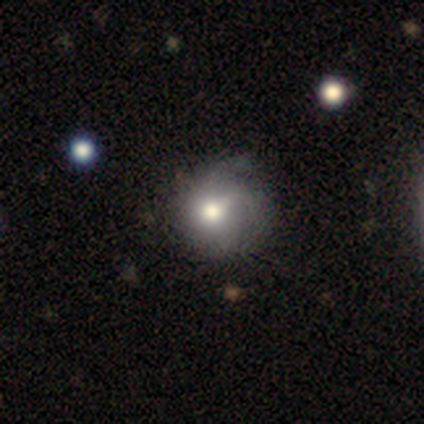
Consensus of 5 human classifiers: A featured or disk galaxy (80%) with no bar (75%), 1 (33%, tied with 2 and can't tell) tight (67%) spiral arms (75%) and a moderate central bulge (75%).

Vote fractions:
- Smooth or featured? featured or disk: 80% / smooth: 20% / star or artifact: 0%
- Edge-on disk? no: 100% / yes: 0%
- Bar? no: 75% / strong: 25% / weak: 0%
- Spiral arms? yes: 75% / no: 25%
- Spiral winding? tight: 67% / medium: 33% / loose: 0%
- Spiral arm count? 1: 33% (tied) / 2: 33% (tied) / can't tell: 33% (tied) / 3: 0% / 4: 0% / more than 4: 0%
- Bulge size? moderate: 75% / dominant: 25% / large: 0% / small: 0% / none: 0%
- Merging? minor disturbance: 60% / none: 40% / major disturbance: 0% / merger: 0%